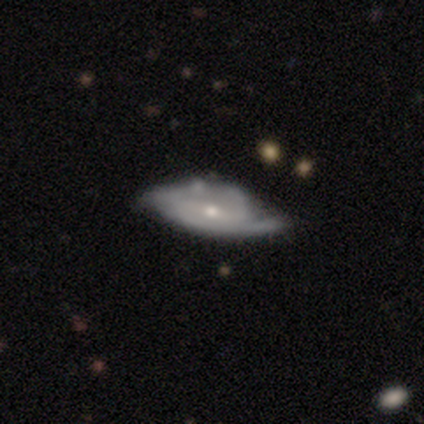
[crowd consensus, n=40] featured or disk 90%, smooth 10%, star or artifact 0%. Down the decision tree: edge-on disk — no (81%); bar — weak (59%); spiral arms — yes (93%); spiral arm count — 2 (78%); spiral winding — medium (44%); bulge size — moderate (55%); merging — minor disturbance (25%).